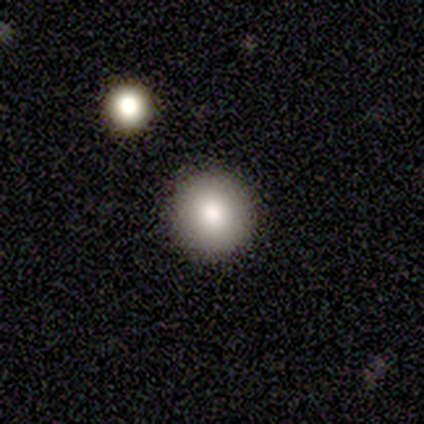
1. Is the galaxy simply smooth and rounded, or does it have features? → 75% smooth, 25% star or artifact, 0% featured or disk.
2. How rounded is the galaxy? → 100% round, 0% in between, 0% cigar-shaped.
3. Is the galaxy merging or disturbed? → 100% none, 0% minor disturbance, 0% major disturbance, 0% merger.